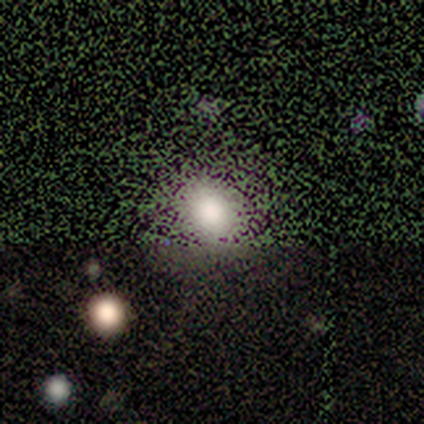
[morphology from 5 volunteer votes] type=smooth (60%); roundness=in between (67%); merging=none (100%).